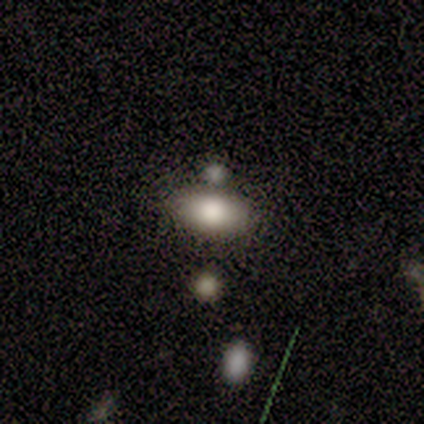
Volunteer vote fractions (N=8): Smooth or featured: smooth — 75% (featured or disk — 12%)
How rounded: in between — 100%
Merging: none — 43% (tied with minor disturbance — 43%)